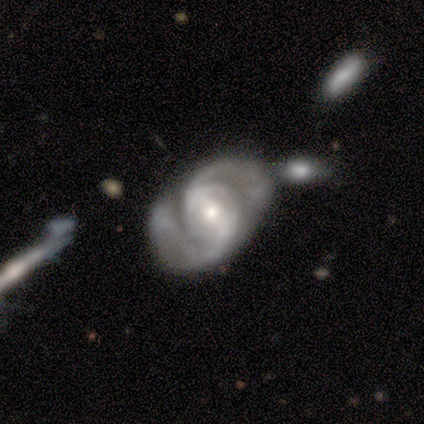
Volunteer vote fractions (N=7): Volunteers were most divided on "bar": strong: 57%, weak: 29%, no: 14%. More confident: smooth or featured — featured or disk (100%); edge-on disk — no (100%); spiral arms — yes (100%); spiral arm count — 2 (86%); bulge size — small (71%); spiral winding — medium (57%); merging — none (57%).